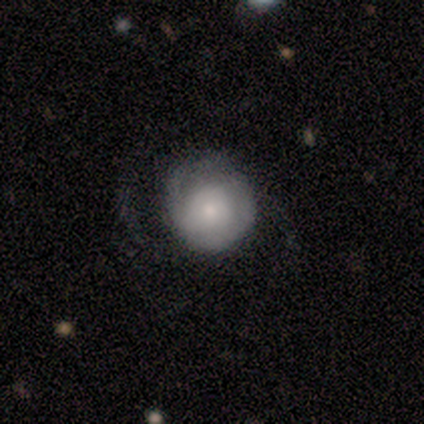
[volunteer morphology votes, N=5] smooth_or_featured: smooth (p=0.60) [alt: featured or disk p=0.40]
how_rounded: round (p=1.00)
merging: minor disturbance (p=0.60) [alt: none p=0.20]